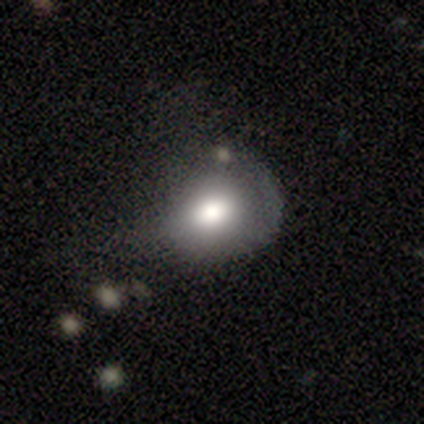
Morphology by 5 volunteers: This appears to be a smooth galaxy with no disk features (80%) that is round (50%, tied with in between). Merging: major disturbance (75%).